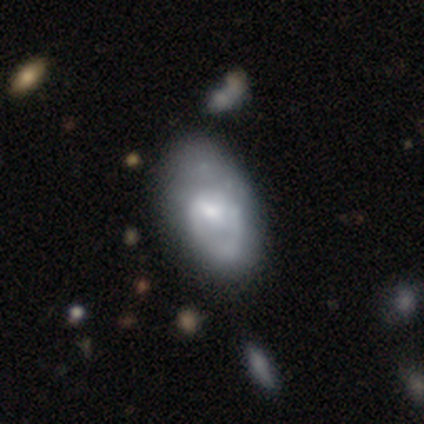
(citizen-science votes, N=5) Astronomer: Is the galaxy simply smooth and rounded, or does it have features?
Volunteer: featured or disk — 60%.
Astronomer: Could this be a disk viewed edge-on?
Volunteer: no — 100%.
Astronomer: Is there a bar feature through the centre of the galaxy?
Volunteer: no — 67%.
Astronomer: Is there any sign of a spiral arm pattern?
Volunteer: no — 67%.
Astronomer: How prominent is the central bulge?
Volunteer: moderate — 67%.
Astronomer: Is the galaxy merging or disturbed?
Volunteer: none — 50%, tied with minor disturbance at 50%.